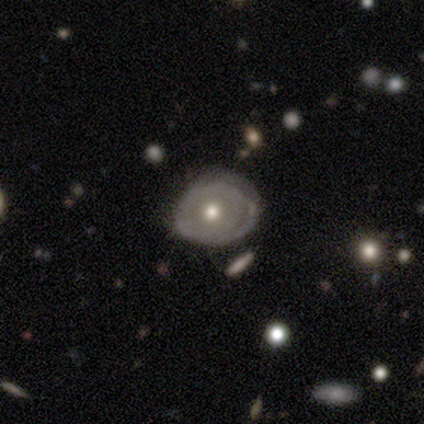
A featured or disk galaxy (65%) with no bar (84%), no spiral arms (60%) and a moderate central bulge (80%). Merging: none (61%).